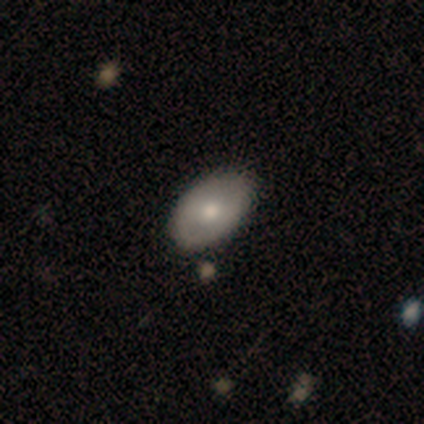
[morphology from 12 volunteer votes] This appears to be a smooth galaxy with no disk features (67%) that is in between round and cigar-shaped (100%). Merging: none (91%).